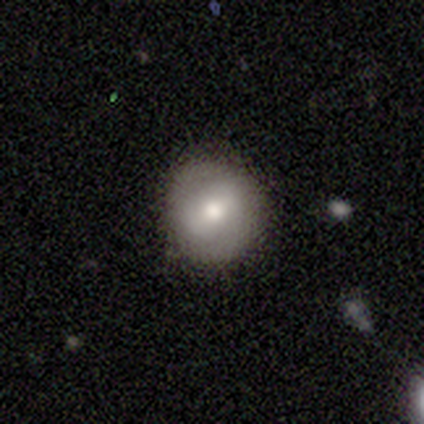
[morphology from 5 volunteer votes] A smooth galaxy with no disk features (60%) that is round (100%). Merging: none (80%).